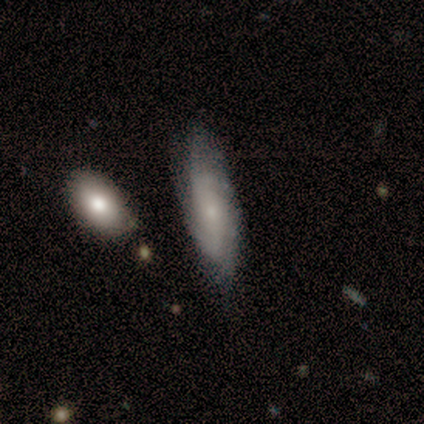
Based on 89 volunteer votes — A featured or disk galaxy (53%) with no bar (68%), medium (53%) spiral arms (88%) and a small central bulge (78%).

Vote fractions:
- Smooth or featured? featured or disk: 53% / smooth: 39% / star or artifact: 8%
- Edge-on disk? no: 87% / yes: 13%
- Bar? no: 68% / weak: 29% / strong: 2%
- Spiral arms? yes: 88% / no: 12%
- Spiral winding? medium: 53% / tight: 39% / loose: 8%
- Spiral arm count? can't tell: 56% / 2: 28% / 4: 11% / 3: 6% / 1: 0% / more than 4: 0%
- Bulge size? small: 78% / moderate: 12% / none: 10% / dominant: 0% / large: 0%
- Merging? none: 71% / minor disturbance: 23% / merger: 4% / major disturbance: 2%